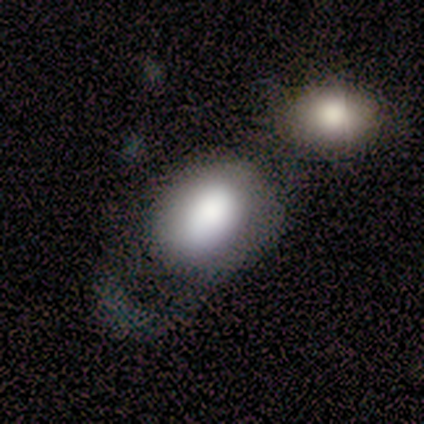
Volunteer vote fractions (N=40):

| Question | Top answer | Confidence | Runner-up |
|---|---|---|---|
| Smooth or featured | smooth | 78% | featured or disk (18%) |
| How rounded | in between | 61% | round (39%) |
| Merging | major disturbance | 45% | none (24%) |